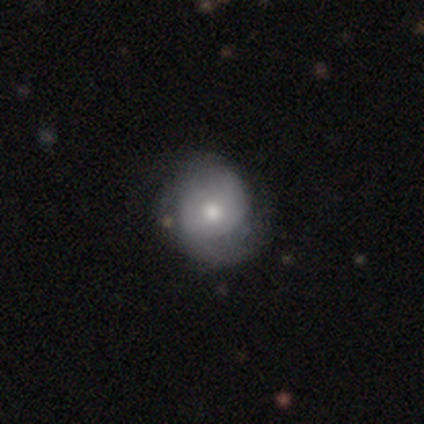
featured or disk 69%, smooth 26%, star or artifact 5%. Down the decision tree: edge-on disk — no (100%); bar — no (93%); spiral arms — yes (74%); spiral arm count — 2 (80%); spiral winding — medium (40%); bulge size — moderate (74%); merging — none (38%).